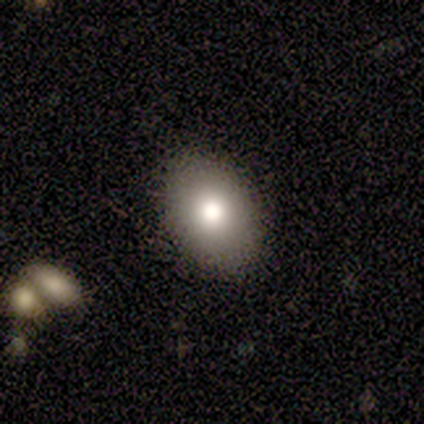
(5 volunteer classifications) A smooth galaxy with no disk features (60%) that is in between round and cigar-shaped (67%).

Vote fractions:
- Smooth or featured? smooth: 60% / featured or disk: 40% / star or artifact: 0%
- How rounded? in between: 67% / round: 33% / cigar-shaped: 0%
- Merging? none: 80% / minor disturbance: 20% / major disturbance: 0% / merger: 0%